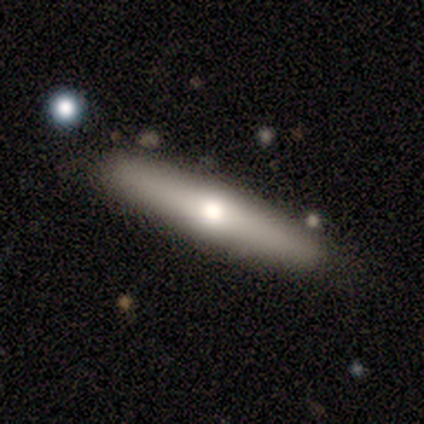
A featured or disk galaxy (60%) viewed edge-on (67%) with a rounded central bulge (100%).

Vote fractions:
- Smooth or featured? featured or disk: 60% / smooth: 40% / star or artifact: 0%
- Edge-on disk? yes: 67% / no: 33%
- Edge-on bulge? rounded: 100% / boxy: 0% / none: 0%
- Merging? none: 80% / minor disturbance: 20% / major disturbance: 0% / merger: 0%